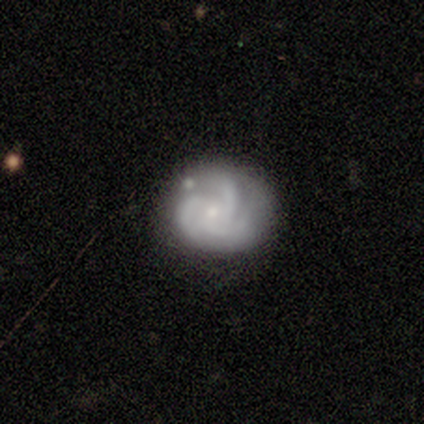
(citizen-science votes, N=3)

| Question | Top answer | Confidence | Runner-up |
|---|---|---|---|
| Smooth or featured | featured or disk | 100% | — |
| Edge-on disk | no | 100% | — |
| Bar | no | 67% | weak (33%) |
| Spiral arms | yes | 100% | — |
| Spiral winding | tight | 67% | medium (33%) |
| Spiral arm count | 2 | 67% | can't tell (33%) |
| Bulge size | moderate | 67% | small (33%) |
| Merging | none | 67% | minor disturbance (33%) |